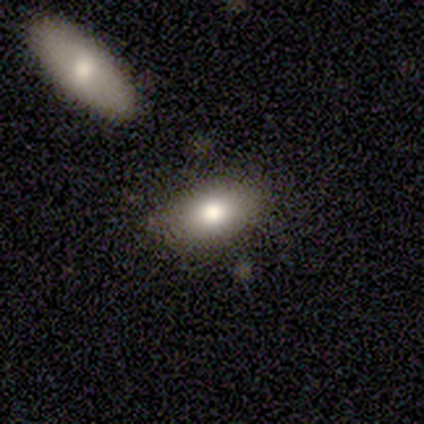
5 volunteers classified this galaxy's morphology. Smooth or featured?
  - smooth: 80% *
  - featured or disk: 20%
  - star or artifact: 0%
How rounded?
  - in between: 100% *
  - round: 0%
  - cigar-shaped: 0%
Merging?
  - none: 60% *
  - minor disturbance: 40%
  - major disturbance: 0%
  - merger: 0%